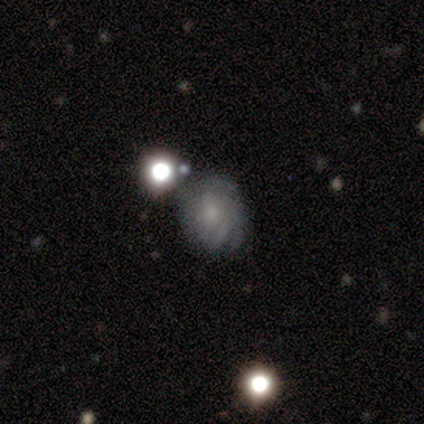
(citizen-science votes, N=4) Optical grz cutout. It shows a featured or disk galaxy (50%) with no bar (100%), 3 (100%) tight (100%) spiral arms (50%, tied with no) and a small central bulge (100%). Merging: none (100%).